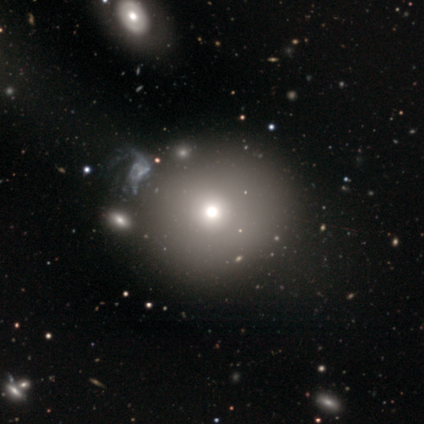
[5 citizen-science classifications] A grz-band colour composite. It shows a smooth galaxy with no disk features (40%, tied with star or artifact) that is round (100%). Merging: none (100%).